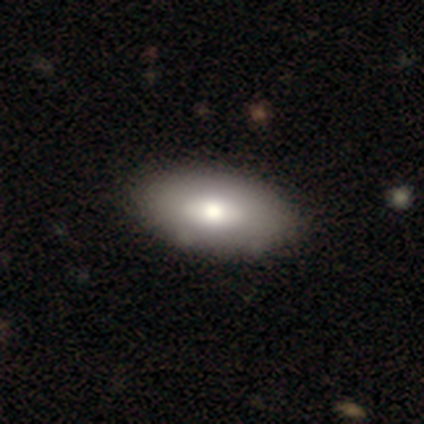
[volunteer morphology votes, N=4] A smooth galaxy with no disk features (100%) that is in between round and cigar-shaped (75%). Merging: none (100%).